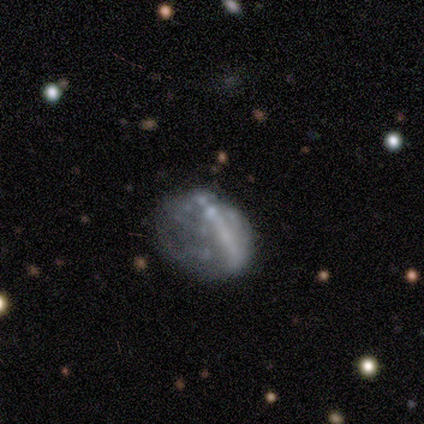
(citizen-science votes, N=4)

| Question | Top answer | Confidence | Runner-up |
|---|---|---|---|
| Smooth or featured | smooth | 50% | tied: featured or disk (50%) |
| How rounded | in between | 100% | — |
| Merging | major disturbance | 50% | none (25%) |